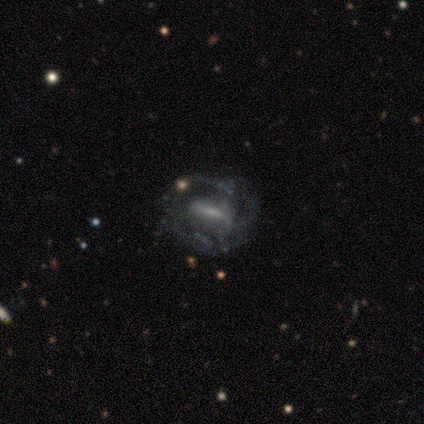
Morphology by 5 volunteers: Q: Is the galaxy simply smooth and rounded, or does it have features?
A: featured or disk — 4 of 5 (80%).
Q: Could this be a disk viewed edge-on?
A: no — 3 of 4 (75%).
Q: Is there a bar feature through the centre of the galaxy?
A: no — 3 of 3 (100%).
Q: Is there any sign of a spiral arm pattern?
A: no — 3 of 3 (100%).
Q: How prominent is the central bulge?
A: none — 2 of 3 (67%).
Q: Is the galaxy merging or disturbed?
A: none — 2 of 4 (50%).